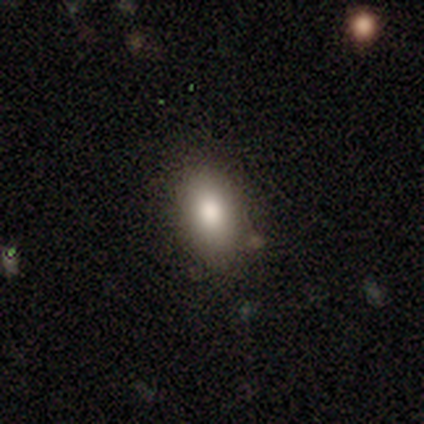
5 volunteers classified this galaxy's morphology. smooth-or-featured: smooth: 100% | featured or disk: 0% | star or artifact: 0%
  how-rounded: in between: 80% | cigar-shaped: 20% | round: 0%
  merging: none: 80% | minor disturbance: 20% | major disturbance: 0% | merger: 0%